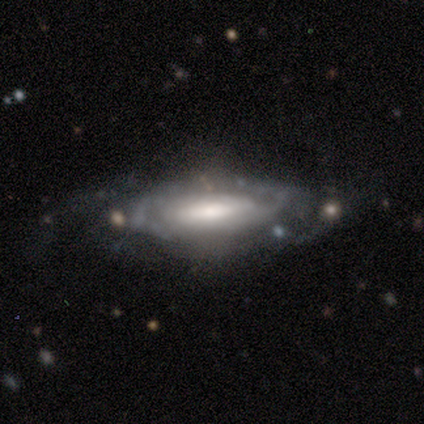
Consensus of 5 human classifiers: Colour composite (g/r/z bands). It shows a featured or disk galaxy (80%) with no bar (67%), no spiral arms (100%) and a moderate central bulge (67%). Merging: none (80%).